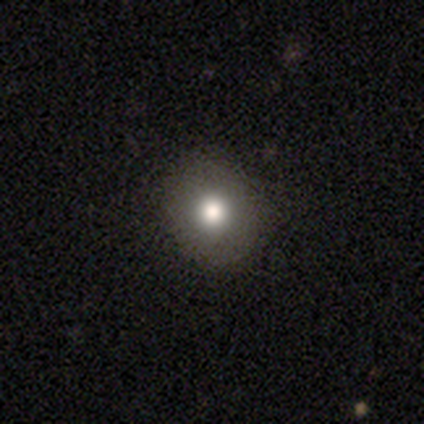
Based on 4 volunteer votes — smooth 100%, featured or disk 0%, star or artifact 0%. Down the decision tree: how rounded — round (100%); merging — none (100%).